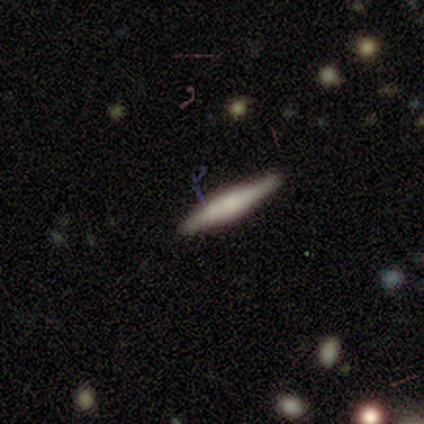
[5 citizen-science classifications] Overall: featured or disk (60%; smooth 40%). Edge-on disk: yes (100%). Edge-on bulge: rounded (67%; boxy 33%). Merging: none (100%).